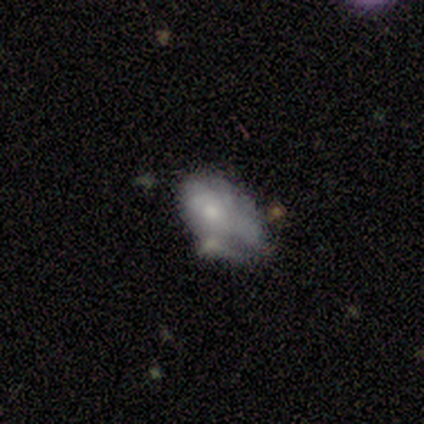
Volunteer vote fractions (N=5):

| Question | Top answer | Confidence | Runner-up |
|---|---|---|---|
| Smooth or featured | smooth | 80% | featured or disk (20%) |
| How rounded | in between | 75% | round (25%) |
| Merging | none | 40% | tied: major disturbance (40%) |